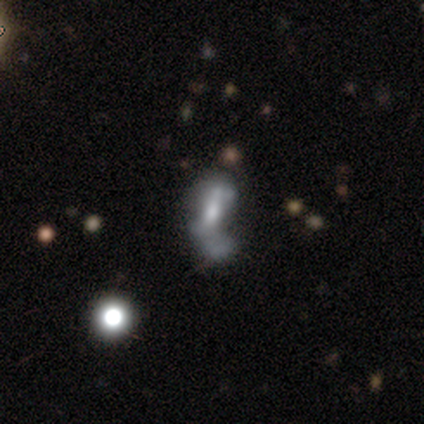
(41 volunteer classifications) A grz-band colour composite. It shows a featured or disk galaxy (68%) with no bar (56%), no spiral arms (70%) and a moderate central bulge (63%). Merging: major disturbance (51%).